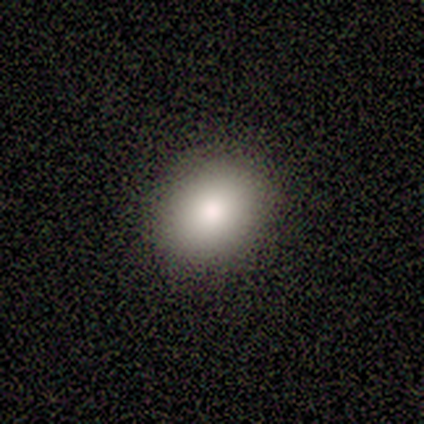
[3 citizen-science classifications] This is clearly a smooth galaxy (100%). How rounded: clearly round (100%). Merging: clearly none (100%).